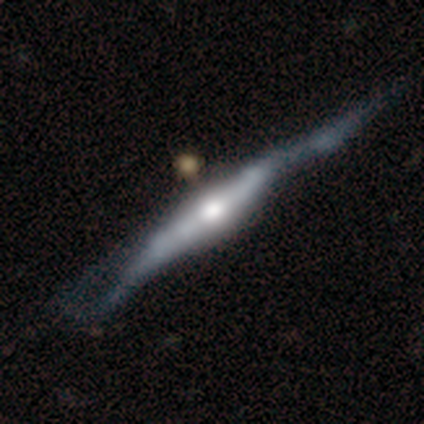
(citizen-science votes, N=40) Morphology: type=featured or disk (88%); edge-on=yes (97%); edge-on bulge=rounded (74%); merging=none (28%).